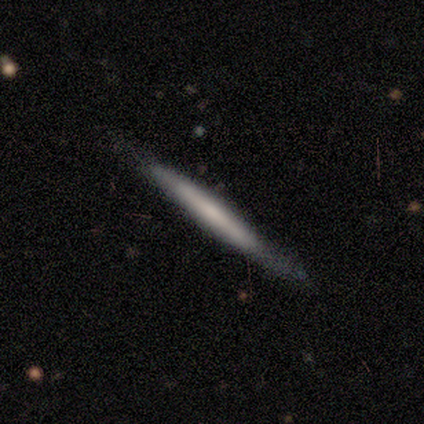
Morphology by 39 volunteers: type=featured or disk (56%); edge-on=yes (100%); edge-on bulge=none (68%); merging=none (76%).